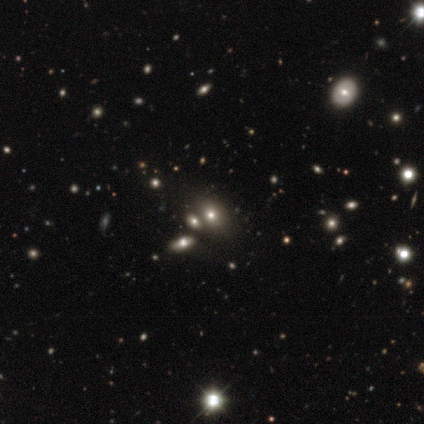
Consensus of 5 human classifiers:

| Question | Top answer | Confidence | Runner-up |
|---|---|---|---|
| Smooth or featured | smooth | 60% | featured or disk (20%) |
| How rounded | in between | 67% | round (33%) |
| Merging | merger | 50% | none (25%) |